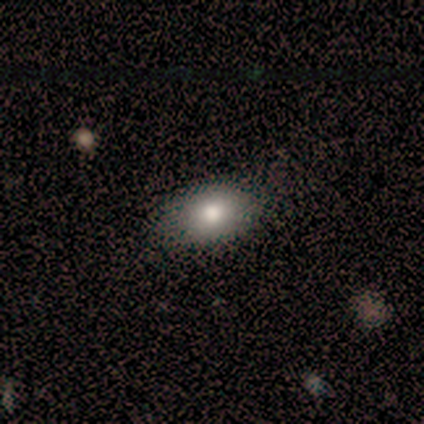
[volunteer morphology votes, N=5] smooth-or-featured: smooth: 100% | featured or disk: 0% | star or artifact: 0%
  how-rounded: in between: 100% | round: 0% | cigar-shaped: 0%
  merging: none: 80% | minor disturbance: 20% | major disturbance: 0% | merger: 0%